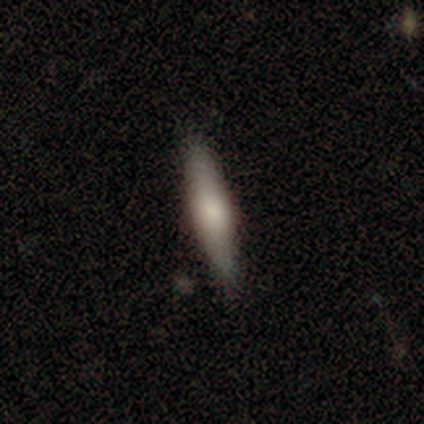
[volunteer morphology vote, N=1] Overall: smooth (100%). How rounded: in between (100%). Merging: none (100%).